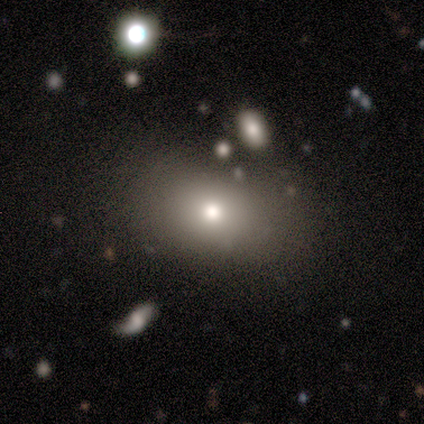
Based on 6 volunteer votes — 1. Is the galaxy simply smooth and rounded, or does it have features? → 83% smooth, 17% star or artifact, 0% featured or disk.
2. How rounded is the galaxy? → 60% in between, 40% round, 0% cigar-shaped.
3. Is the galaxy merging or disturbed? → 100% none, 0% minor disturbance, 0% major disturbance, 0% merger.